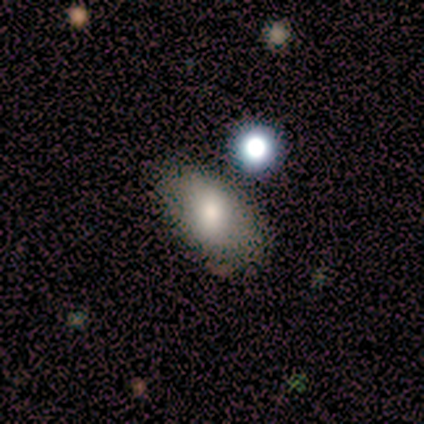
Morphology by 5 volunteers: Smooth or featured? smooth (80%)
How rounded? in between (100%)
Merging? none (80%)